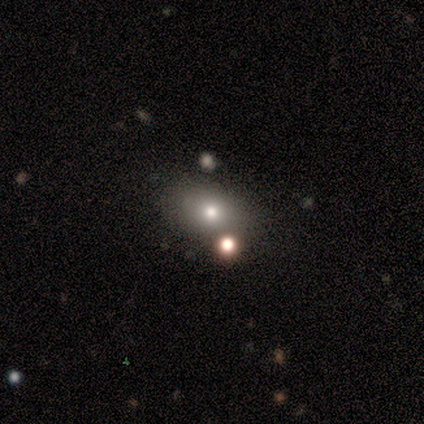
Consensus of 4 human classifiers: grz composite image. It shows a smooth galaxy with no disk features (75%) that is round (67%). Merging: none (100%).